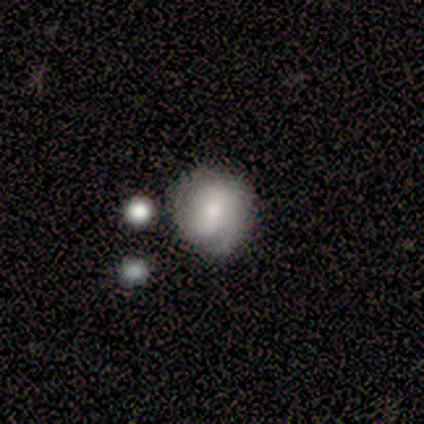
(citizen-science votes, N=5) A featured or disk galaxy (80%) with a weak bar (75%), 2 (75%) tight (50%, tied with medium) spiral arms (100%) and a large central bulge (50%, tied with moderate). Merging: none (100%).